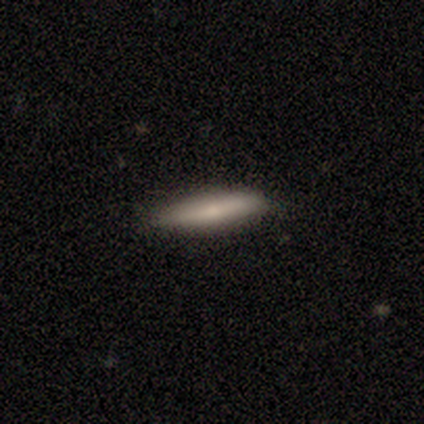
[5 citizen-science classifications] smooth_or_featured: smooth (p=0.80) [alt: featured or disk p=0.20]
how_rounded: cigar-shaped (p=0.75) [alt: in between p=0.25]
merging: none (p=1.00)